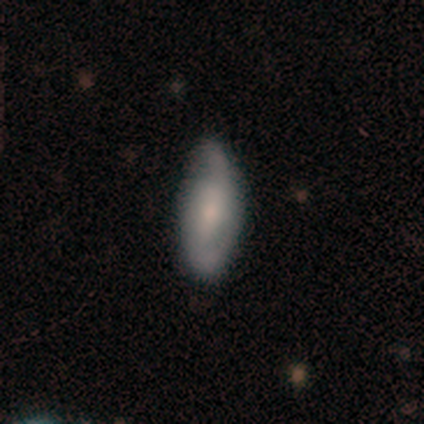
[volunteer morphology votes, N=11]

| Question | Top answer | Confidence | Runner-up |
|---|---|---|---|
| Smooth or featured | featured or disk | 64% | smooth (36%) |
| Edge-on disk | no | 100% | — |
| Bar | no | 71% | weak (29%) |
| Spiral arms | yes | 86% | no (14%) |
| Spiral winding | loose | 50% | tight (33%) |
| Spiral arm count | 2 | 83% | can't tell (17%) |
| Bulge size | moderate | 57% | none (29%) |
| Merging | none | 45% | tied: minor disturbance (45%) |